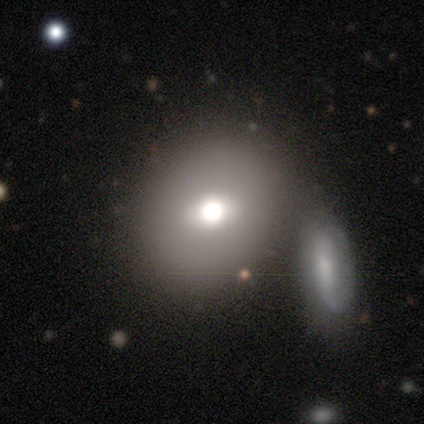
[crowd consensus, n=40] Smooth or featured: smooth — 78% (featured or disk — 18%)
How rounded: round — 68% (in between — 32%)
Merging: none — 58% (merger — 29%)